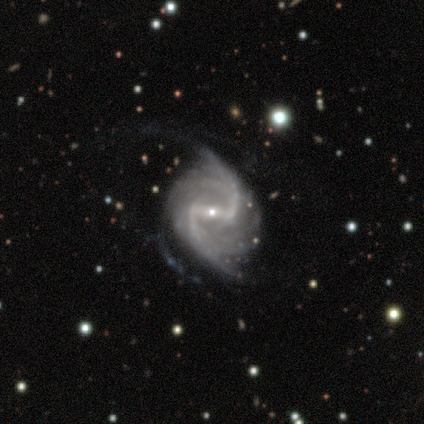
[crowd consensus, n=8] Smooth or featured?
  - featured or disk: 100% *
  - smooth: 0%
  - star or artifact: 0%
Edge-on disk?
  - no: 100% *
  - yes: 0%
Bar?
  - strong: 50% *
  - weak: 38%
  - no: 12%
Spiral arms?
  - yes: 100% *
  - no: 0%
Spiral winding?
  - loose: 75% *
  - tight: 12%
  - medium: 12%
Spiral arm count?
  - 2: 75% *
  - 4: 12%
  - can't tell: 12%
  - 1: 0%
  - 3: 0%
  - more than 4: 0%
Bulge size?
  - small: 88% *
  - moderate: 12%
  - dominant: 0%
  - large: 0%
  - none: 0%
Merging?
  - none: 50% *
  - minor disturbance: 38%
  - major disturbance: 12%
  - merger: 0%